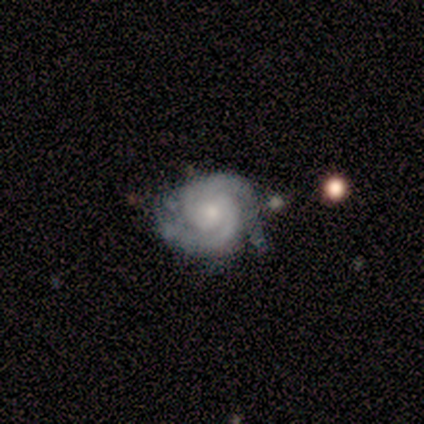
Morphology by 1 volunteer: Overall: featured or disk (100%). Edge-on disk: no (100%). Bar: no (100%). Spiral arms: yes (100%). Spiral arm count: 2 (100%). Spiral winding: tight (100%). Bulge size: none (100%). Merging: none (100%).